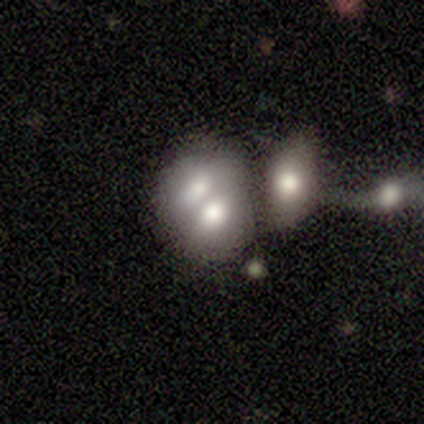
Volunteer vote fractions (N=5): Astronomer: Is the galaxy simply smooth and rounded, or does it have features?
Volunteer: smooth — 80%.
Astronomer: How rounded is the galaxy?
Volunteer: in between — 75%.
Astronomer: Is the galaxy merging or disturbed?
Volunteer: merger — 100%.